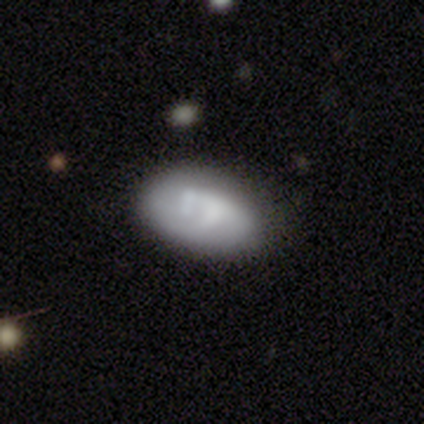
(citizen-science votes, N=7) smooth 57%, featured or disk 29%, star or artifact 14%. Down the decision tree: how rounded — in between (100%); merging — none (33%, tied with minor disturbance).